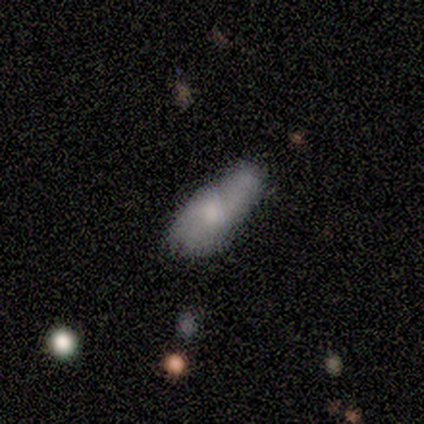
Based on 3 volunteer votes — Smooth or featured: smooth — 67% (featured or disk — 33%)
How rounded: in between — 100%
Merging: minor disturbance — 67% (merger — 33%)